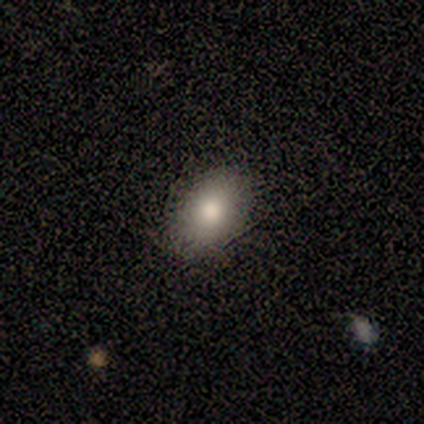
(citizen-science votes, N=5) This is clearly a smooth galaxy (100%). How rounded: likely in between (60%). Merging: likely none (60%).